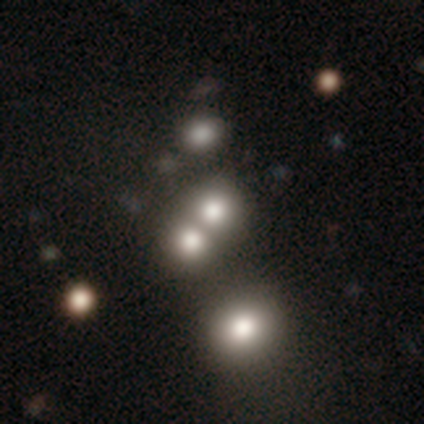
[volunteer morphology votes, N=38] Smooth or featured?
  - smooth: 63% *
  - star or artifact: 24%
  - featured or disk: 13%
How rounded?
  - round: 83% *
  - in between: 17%
  - cigar-shaped: 0%
Merging?
  - merger: 72% *
  - none: 21%
  - minor disturbance: 0%
  - major disturbance: 0%